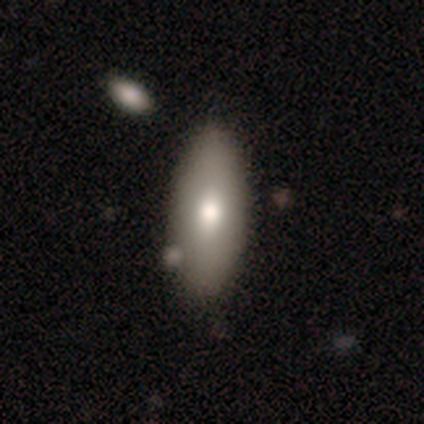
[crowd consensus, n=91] This is likely a smooth galaxy (77%). How rounded: likely in between (74%). Merging: likely none (67%).